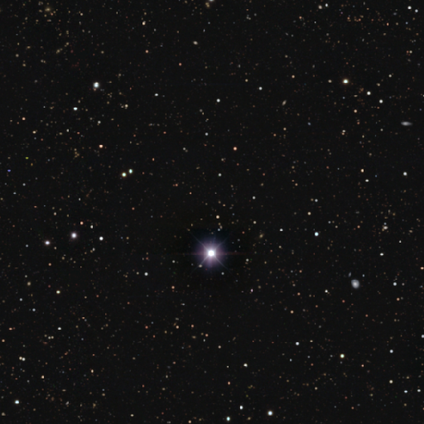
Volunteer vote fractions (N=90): Smooth or featured?
  - star or artifact: 93% *
  - smooth: 7%
  - featured or disk: 0%